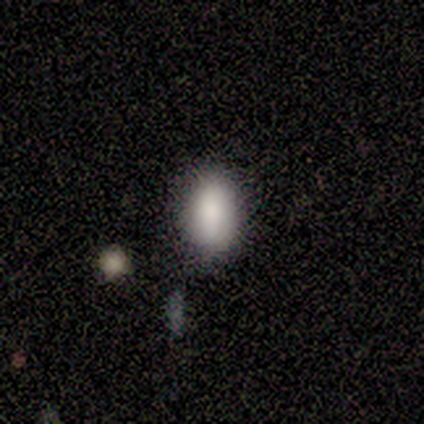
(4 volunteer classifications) This is likely a smooth galaxy (75%). How rounded: clearly in between (100%). Merging: clearly none (100%).